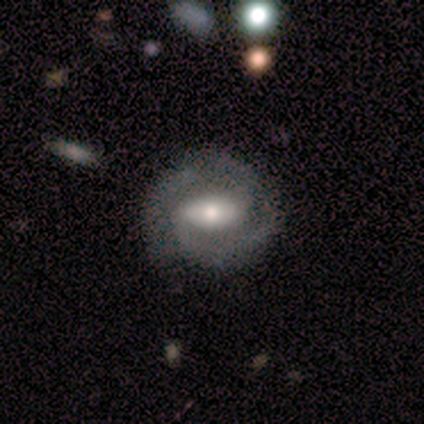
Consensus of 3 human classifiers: Smooth or featured: featured or disk — 100%
Edge-on disk: no — 100%
Bar: weak — 67% (no — 33%)
Spiral arms: yes — 67% (no — 33%)
Spiral winding: medium — 100%
Spiral arm count: 2 — 100%
Bulge size: moderate — 100%
Merging: none — 67% (minor disturbance — 33%)